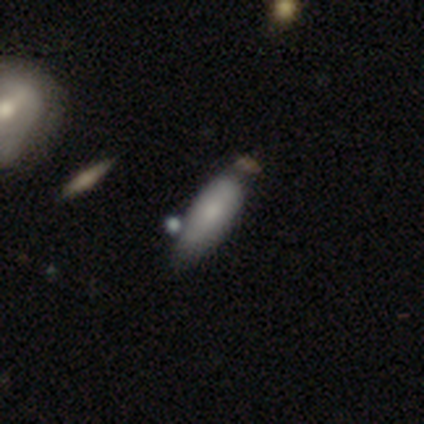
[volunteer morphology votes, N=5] smooth_or_featured: smooth (p=1.00)
how_rounded: in between (p=0.80) [alt: cigar-shaped p=0.20]
merging: none (p=0.40) [tied with: merger p=0.40]